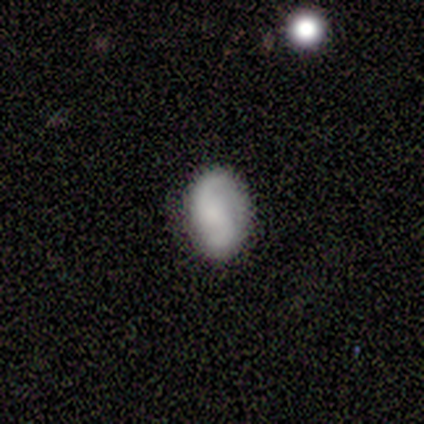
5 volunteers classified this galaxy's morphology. smooth-or-featured: smooth: 40% (tied) | featured or disk: 40% (tied) | star or artifact: 20%
  how-rounded: in between: 100% | round: 0% | cigar-shaped: 0%
  merging: none: 50% (tied) | minor disturbance: 50% (tied) | major disturbance: 0% | merger: 0%